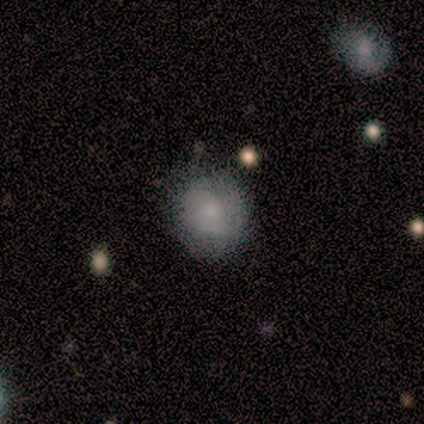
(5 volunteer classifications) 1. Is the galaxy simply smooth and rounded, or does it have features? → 100% smooth, 0% featured or disk, 0% star or artifact.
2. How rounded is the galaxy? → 100% round, 0% in between, 0% cigar-shaped.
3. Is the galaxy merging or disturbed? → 80% none, 20% minor disturbance, 0% major disturbance, 0% merger.